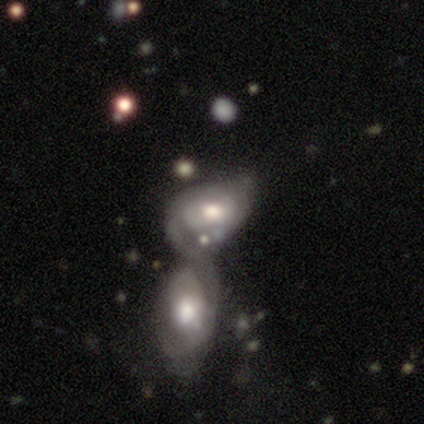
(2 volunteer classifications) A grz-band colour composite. It shows a smooth galaxy with no disk features (50%, tied with featured or disk) that is in between round and cigar-shaped (100%). Merging: minor disturbance (50%, tied with merger).